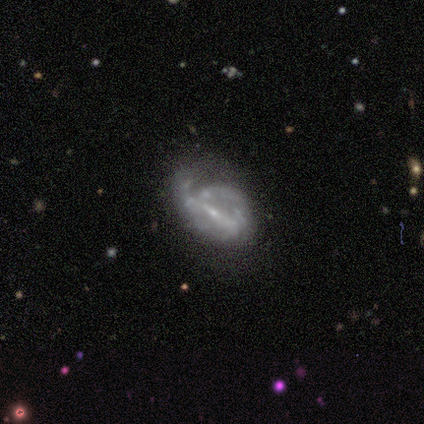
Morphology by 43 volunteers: Smooth or featured: featured or disk — 88% (smooth — 9%)
Edge-on disk: no — 97% (yes — 3%)
Bar: strong — 51% (weak — 35%)
Spiral arms: yes — 76% (no — 24%)
Spiral winding: medium — 46% (tight — 36%)
Spiral arm count: can't tell — 43% (2 — 32%)
Bulge size: small — 89% (moderate — 5%)
Merging: major disturbance — 43% (minor disturbance — 36%)